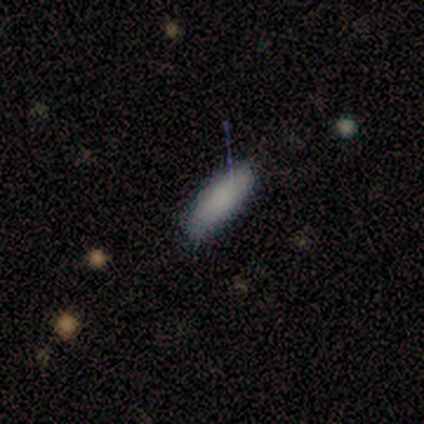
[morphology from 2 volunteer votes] Smooth or featured? 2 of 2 (100%) said smooth. How rounded? 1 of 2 (50%, tied with cigar-shaped) said in between. Merging? 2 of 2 (100%) said none.